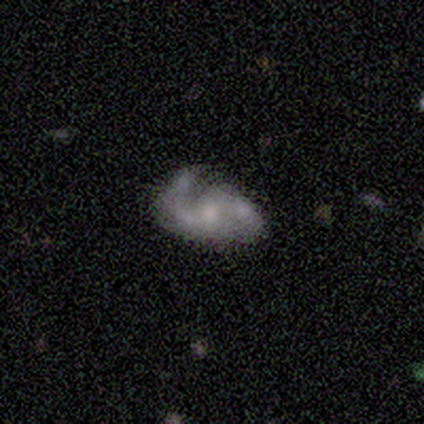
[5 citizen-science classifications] Overall: featured or disk (100%). Edge-on disk: no (100%). Bar: weak (40%, tied with no). Spiral arms: yes (100%). Spiral arm count: 2 (100%). Spiral winding: loose (60%; medium 40%). Bulge size: moderate (80%). Merging: none (60%; minor disturbance 20%).